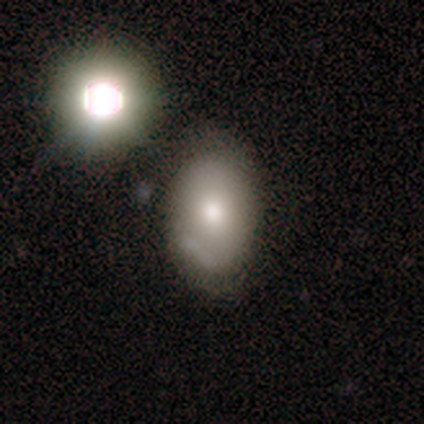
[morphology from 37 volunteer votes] smooth_or_featured: smooth (p=0.49) [alt: featured or disk p=0.32]
how_rounded: in between (p=0.78) [alt: round p=0.22]
merging: none (p=0.53) [alt: minor disturbance p=0.37]